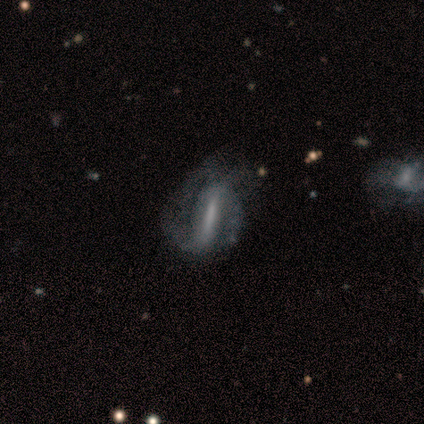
Smooth or featured?
  - featured or disk: 100% *
  - smooth: 0%
  - star or artifact: 0%
Edge-on disk?
  - no: 80% *
  - yes: 20%
Bar?
  - strong: 100% *
  - weak: 0%
  - no: 0%
Spiral arms?
  - yes: 100% *
  - no: 0%
Spiral winding?
  - tight: 50% * (tied)
  - medium: 50% * (tied)
  - loose: 0%
Spiral arm count?
  - 2: 75% *
  - 1: 25%
  - 3: 0%
  - 4: 0%
  - more than 4: 0%
  - can't tell: 0%
Bulge size?
  - large: 50% * (tied)
  - none: 50% * (tied)
  - dominant: 0%
  - moderate: 0%
  - small: 0%
Merging?
  - major disturbance: 60% *
  - minor disturbance: 40%
  - none: 0%
  - merger: 0%